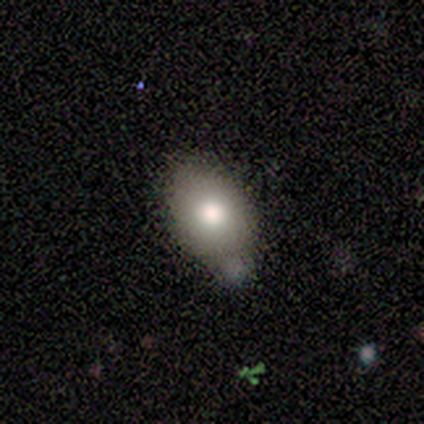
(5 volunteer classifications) Morphology: type=smooth (100%); roundness=in between (100%); merging=minor disturbance (80%).